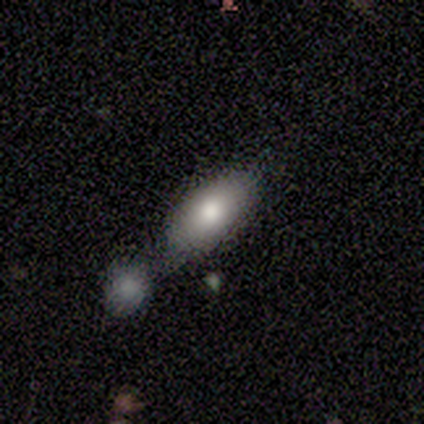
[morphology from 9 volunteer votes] Smooth or featured? smooth (78%)
How rounded? in between (100%)
Merging? merger (44%)